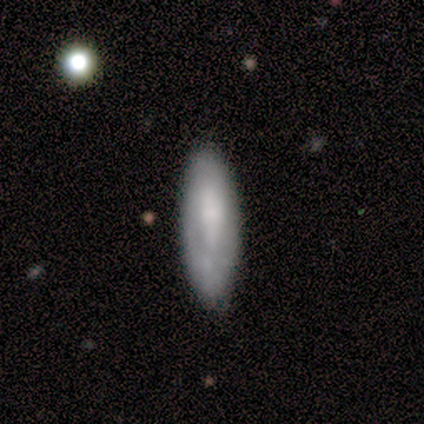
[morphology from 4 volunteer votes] A smooth galaxy with no disk features (100%) that is cigar-shaped (75%). Merging: none (50%).